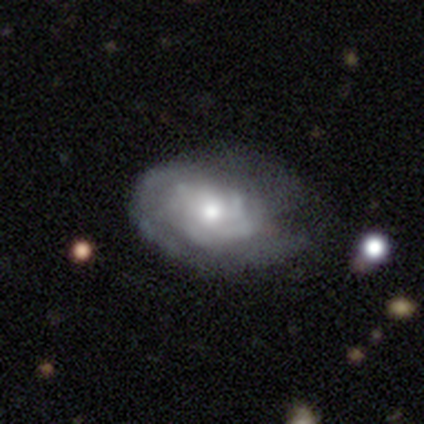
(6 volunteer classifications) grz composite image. It shows a featured or disk galaxy (83%) with a weak bar (60%), 4 (40%, tied with can't tell) medium (40%, tied with loose) spiral arms (100%) and a small central bulge (60%). Merging: minor disturbance (50%).